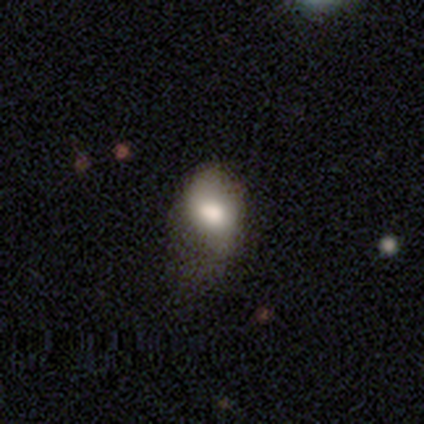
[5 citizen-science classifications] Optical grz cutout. It shows a smooth galaxy with no disk features (60%) that is in between round and cigar-shaped (67%). Merging: none (60%).